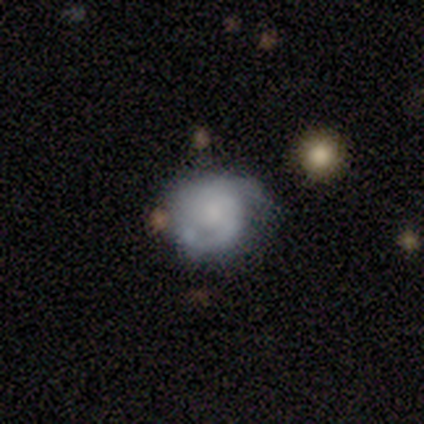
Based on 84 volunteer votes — featured or disk 60%, smooth 33%, star or artifact 7%. Down the decision tree: edge-on disk — no (98%); bar — no (73%); spiral arms — yes (82%); spiral arm count — 2 (55%); spiral winding — tight (48%); bulge size — small (37%); merging — none (58%).